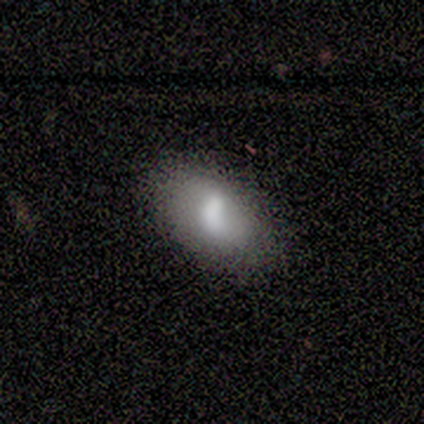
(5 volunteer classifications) Morphology: type=smooth (40%, tied with featured or disk); roundness=in between (100%); merging=none (75%).